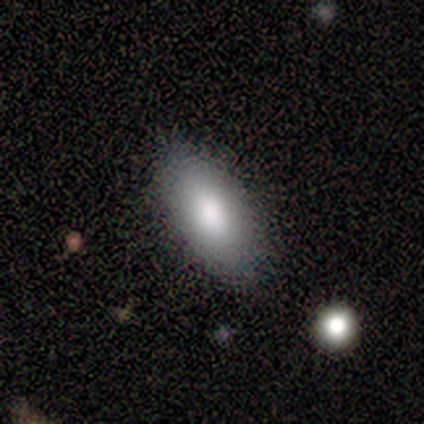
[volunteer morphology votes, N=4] Smooth or featured? 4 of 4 (100%) said smooth. How rounded? 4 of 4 (100%) said in between. Merging? 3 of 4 (75%) said none.